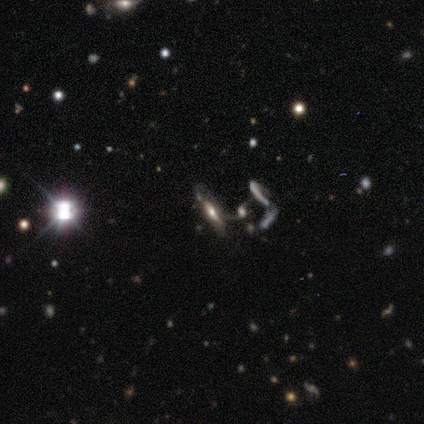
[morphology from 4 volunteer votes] Smooth or featured? featured or disk (50%, tied with star or artifact)
Edge-on disk? yes (100%)
Edge-on bulge? boxy (50%, tied with rounded)
Merging? major disturbance (50%, tied with merger)